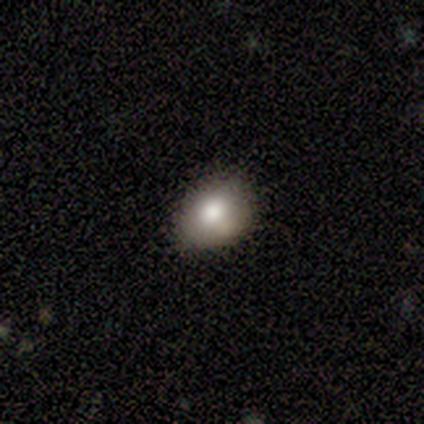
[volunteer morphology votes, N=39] A smooth galaxy with no disk features (74%) that is in between round and cigar-shaped (72%).

Vote fractions:
- Smooth or featured? smooth: 74% / featured or disk: 13% / star or artifact: 13%
- How rounded? in between: 72% / round: 28% / cigar-shaped: 0%
- Merging? none: 68% / minor disturbance: 21% / merger: 9% / major disturbance: 3%